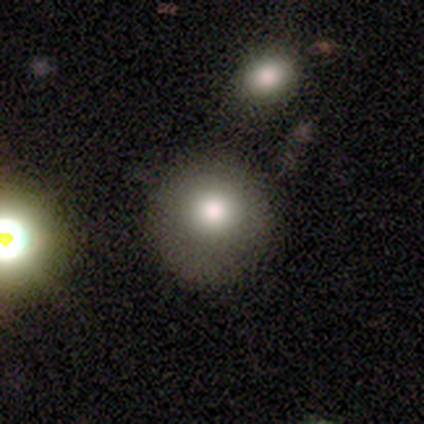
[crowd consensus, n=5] Smooth or featured?
  - smooth: 60% *
  - featured or disk: 40%
  - star or artifact: 0%
How rounded?
  - round: 100% *
  - in between: 0%
  - cigar-shaped: 0%
Merging?
  - none: 80% *
  - merger: 20%
  - minor disturbance: 0%
  - major disturbance: 0%